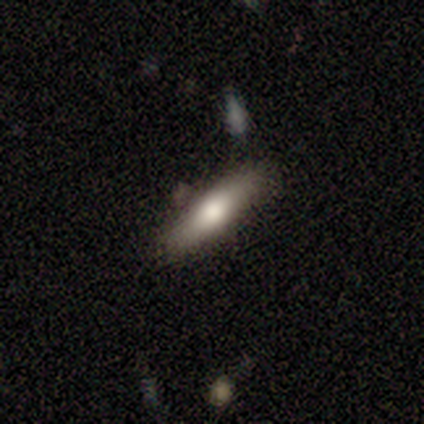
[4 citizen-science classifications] Smooth or featured? 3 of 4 (75%) said smooth. How rounded? 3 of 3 (100%) said cigar-shaped. Merging? 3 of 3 (100%) said none.